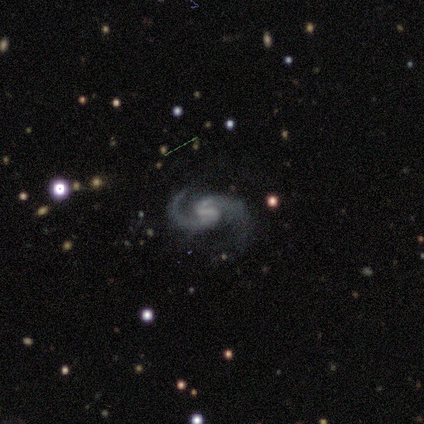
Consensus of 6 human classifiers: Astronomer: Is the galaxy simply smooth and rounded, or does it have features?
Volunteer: featured or disk — 100%.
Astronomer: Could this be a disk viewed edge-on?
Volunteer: no — 100%.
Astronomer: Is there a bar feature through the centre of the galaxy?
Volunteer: weak — 83%.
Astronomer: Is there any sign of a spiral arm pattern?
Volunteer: yes — 100%.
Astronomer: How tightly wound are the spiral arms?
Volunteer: medium — 83%.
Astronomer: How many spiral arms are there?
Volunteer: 2 — 100%.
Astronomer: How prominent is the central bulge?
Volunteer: none — 83%.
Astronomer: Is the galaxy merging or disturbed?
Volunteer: none — 83%.